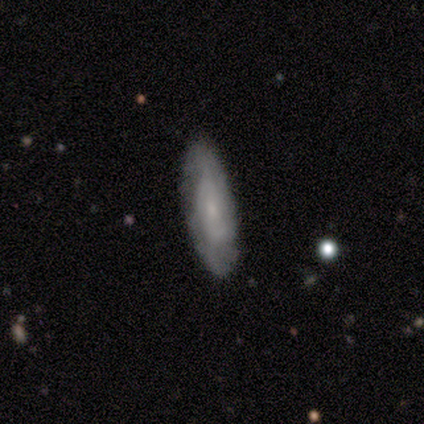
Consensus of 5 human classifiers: Overall: featured or disk (60%; smooth 40%). Edge-on disk: no (100%). Bar: weak (67%; no 33%). Spiral arms: yes (67%; no 33%). Spiral arm count: 2 (50%, tied with can't tell). Spiral winding: tight (50%, tied with medium). Bulge size: small (100%). Merging: none (100%).